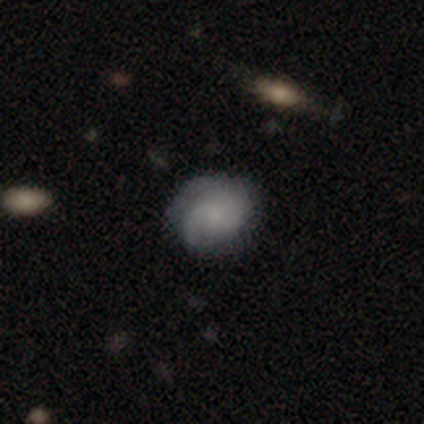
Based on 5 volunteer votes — smooth_or_featured: featured or disk (p=0.60) [alt: smooth p=0.40]
disk_edge_on: no (p=1.00)
bar: no (p=0.67) [alt: weak p=0.33]
has_spiral_arms: yes (p=0.67) [alt: no p=0.33]
spiral_winding: tight (p=0.50) [tied with: loose p=0.50]
spiral_arm_count: 2 (p=0.50) [tied with: can't tell p=0.50]
bulge_size: small (p=0.67) [alt: none p=0.33]
merging: none (p=0.60) [alt: minor disturbance p=0.20]